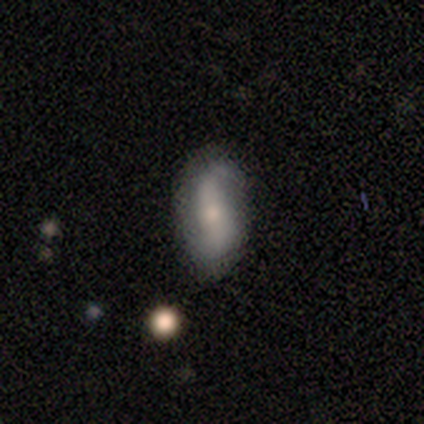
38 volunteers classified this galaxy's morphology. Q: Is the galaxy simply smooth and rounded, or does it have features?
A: featured or disk — 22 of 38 (58%).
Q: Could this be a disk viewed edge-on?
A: no — 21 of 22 (95%).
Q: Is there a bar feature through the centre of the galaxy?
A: strong — 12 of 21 (57%).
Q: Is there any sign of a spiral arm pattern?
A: yes — 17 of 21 (81%).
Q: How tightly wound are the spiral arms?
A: loose — 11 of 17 (65%).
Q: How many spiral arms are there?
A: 2 — 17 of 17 (100%).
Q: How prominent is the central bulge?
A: small — 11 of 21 (52%).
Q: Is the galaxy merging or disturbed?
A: none — 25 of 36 (69%).